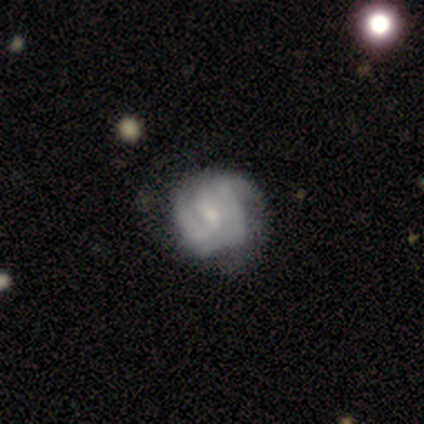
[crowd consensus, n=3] smooth_or_featured: featured or disk (p=0.67) [alt: star or artifact p=0.33]
disk_edge_on: no (p=1.00)
bar: no (p=1.00)
has_spiral_arms: yes (p=1.00)
spiral_winding: tight (p=0.50) [tied with: medium p=0.50]
spiral_arm_count: 3 (p=0.50) [tied with: can't tell p=0.50]
bulge_size: small (p=1.00)
merging: none (p=0.50) [tied with: minor disturbance p=0.50]